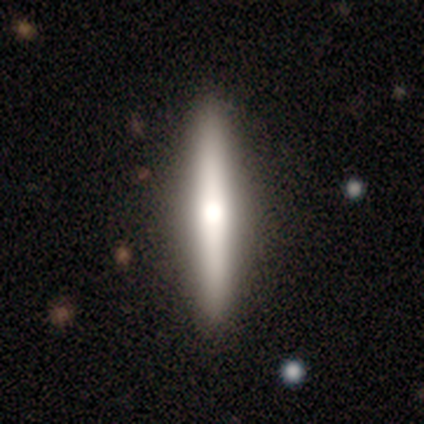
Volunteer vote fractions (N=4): Smooth or featured? smooth (50%)
How rounded? cigar-shaped (100%)
Merging? none (100%)